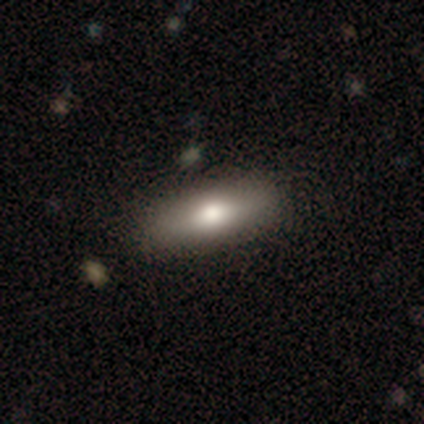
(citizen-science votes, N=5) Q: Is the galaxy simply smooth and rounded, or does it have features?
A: smooth — 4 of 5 (80%).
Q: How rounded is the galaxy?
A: in between — 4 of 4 (100%).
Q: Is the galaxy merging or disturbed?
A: none — 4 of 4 (100%).